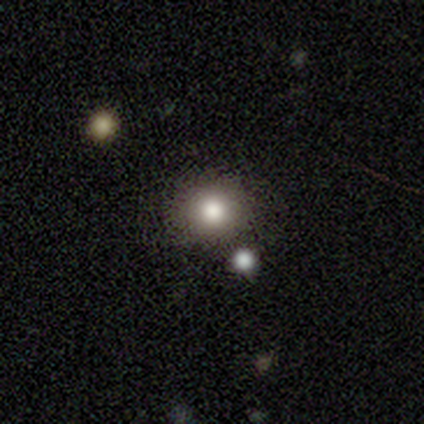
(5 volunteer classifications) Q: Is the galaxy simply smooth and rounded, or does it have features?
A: smooth — 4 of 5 (80%).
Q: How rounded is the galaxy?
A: round — 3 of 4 (75%).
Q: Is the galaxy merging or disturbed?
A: none — 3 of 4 (75%).